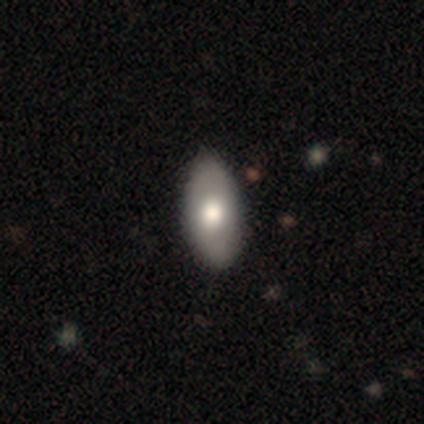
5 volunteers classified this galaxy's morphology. smooth 80%, featured or disk 20%, star or artifact 0%. Down the decision tree: how rounded — in between (75%); merging — none (60%).